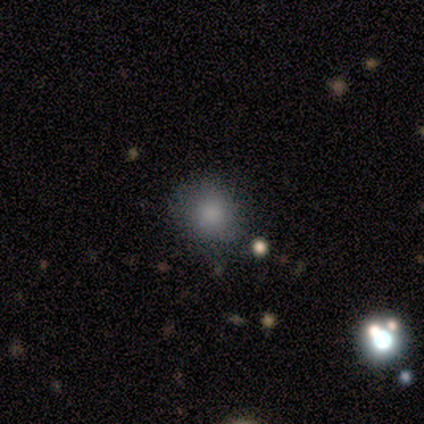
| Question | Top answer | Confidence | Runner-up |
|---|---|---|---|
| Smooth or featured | smooth | 100% | — |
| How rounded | round | 100% | — |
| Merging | none | 50% | tied: minor disturbance (50%) |